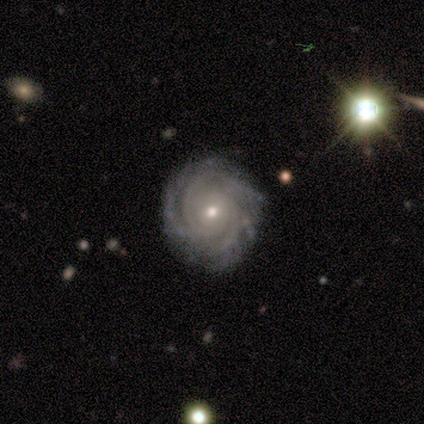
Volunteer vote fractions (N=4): smooth-or-featured: featured or disk: 100% | smooth: 0% | star or artifact: 0%
  disk-edge-on: no: 100% | yes: 0%
    bar: no: 100% | strong: 0% | weak: 0%
    has-spiral-arms: yes: 100% | no: 0%
      spiral-winding: tight: 75% | medium: 25% | loose: 0%
      spiral-arm-count: 3: 50% | 4: 25% | can't tell: 25% | 1: 0% | 2: 0% | more than 4: 0%
    bulge-size: small: 75% | moderate: 25% | dominant: 0% | large: 0% | none: 0%
  merging: none: 75% | minor disturbance: 25% | major disturbance: 0% | merger: 0%